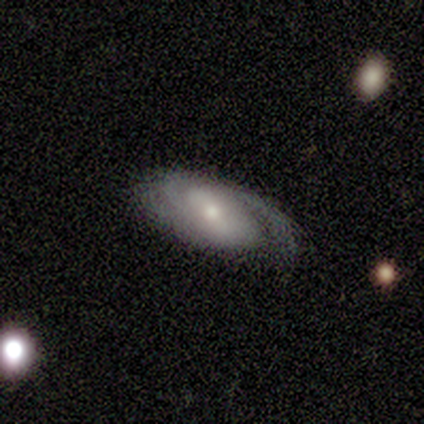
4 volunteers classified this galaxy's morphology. This is likely a featured or disk galaxy (75%). It is clearly not viewed edge-on (100%). Bar: marginally strong (33%, tied with weak and no). Spiral arm pattern: likely yes (67%). Spiral arm count: possibly 2 (50%, tied with can't tell). Spiral winding: possibly medium (50%, tied with loose). Central bulge: likely small (67%). Merging: likely none (75%).